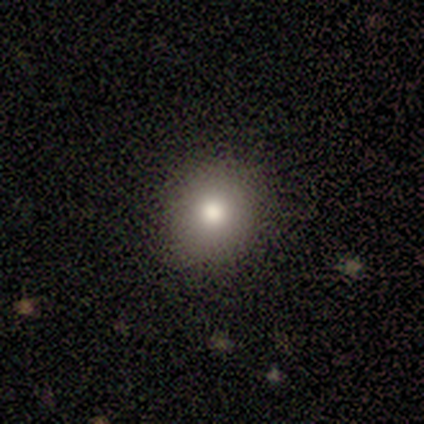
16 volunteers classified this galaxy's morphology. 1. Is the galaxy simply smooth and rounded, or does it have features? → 69% smooth, 19% star or artifact, 12% featured or disk.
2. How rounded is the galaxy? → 73% round, 27% in between, 0% cigar-shaped.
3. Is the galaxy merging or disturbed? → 85% none, 15% minor disturbance, 0% major disturbance, 0% merger.